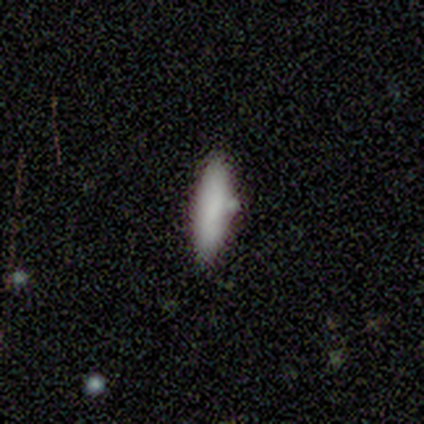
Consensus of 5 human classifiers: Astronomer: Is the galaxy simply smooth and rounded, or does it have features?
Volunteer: smooth — 100%.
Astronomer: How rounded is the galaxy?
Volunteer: in between — 60% (runner-up: cigar-shaped, 40%).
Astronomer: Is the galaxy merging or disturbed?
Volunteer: none — 80%.